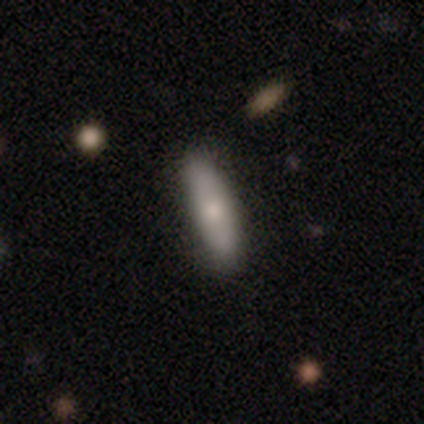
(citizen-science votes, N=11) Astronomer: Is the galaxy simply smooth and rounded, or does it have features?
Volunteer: smooth — 73%.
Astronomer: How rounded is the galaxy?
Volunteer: cigar-shaped — 62%.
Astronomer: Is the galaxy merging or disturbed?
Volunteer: none — 80%.